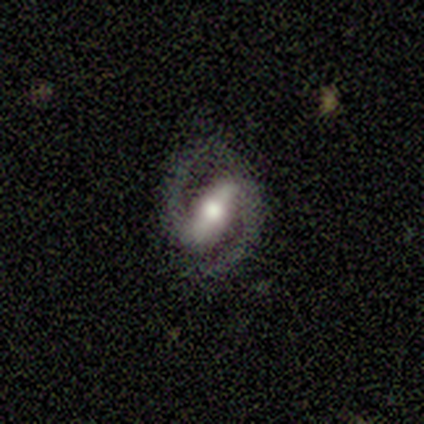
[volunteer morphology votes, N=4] Smooth or featured? featured or disk (75%)
Edge-on disk? no (67%)
Bar? strong (50%, tied with no)
Spiral arms? yes (100%)
Spiral winding? medium (100%)
Spiral arm count? 2 (100%)
Bulge size? moderate (50%, tied with small)
Merging? none (100%)